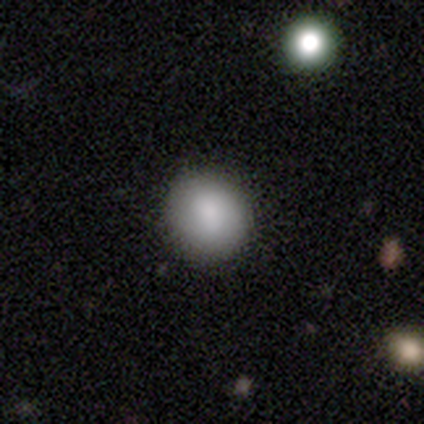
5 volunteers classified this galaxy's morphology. Smooth or featured?
  - smooth: 100% *
  - featured or disk: 0%
  - star or artifact: 0%
How rounded?
  - round: 80% *
  - in between: 20%
  - cigar-shaped: 0%
Merging?
  - none: 80% *
  - minor disturbance: 20%
  - major disturbance: 0%
  - merger: 0%